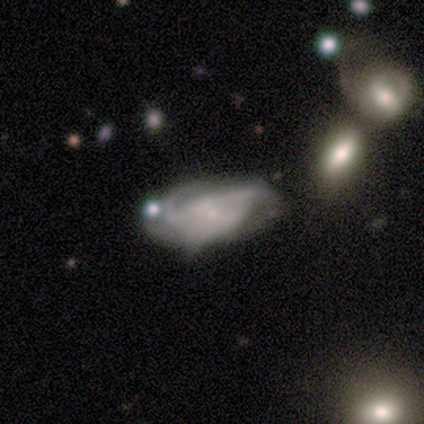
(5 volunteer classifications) Smooth or featured? 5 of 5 (100%) said featured or disk. Edge-on disk? 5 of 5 (100%) said no. Bar? 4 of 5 (80%) said no. Spiral arms? 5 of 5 (100%) said yes. Spiral winding? 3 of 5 (60%) said tight. Spiral arm count? 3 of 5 (60%) said 3. Bulge size? 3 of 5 (60%) said small. Merging? 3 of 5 (60%) said none.